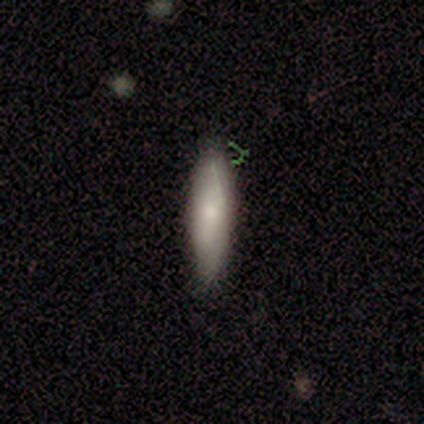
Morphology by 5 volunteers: Smooth or featured? smooth (80%)
How rounded? in between (50%, tied with cigar-shaped)
Merging? none (100%)